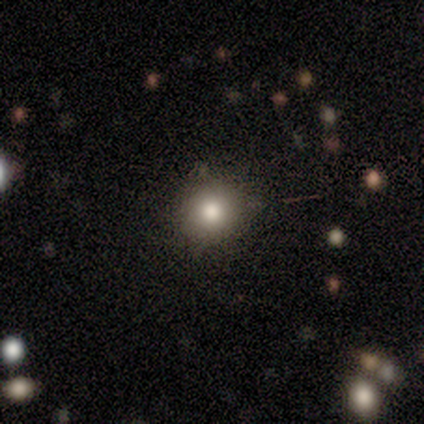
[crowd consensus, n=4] This is clearly a smooth galaxy (100%). How rounded: likely round (75%). Merging: possibly none (50%, tied with minor disturbance).